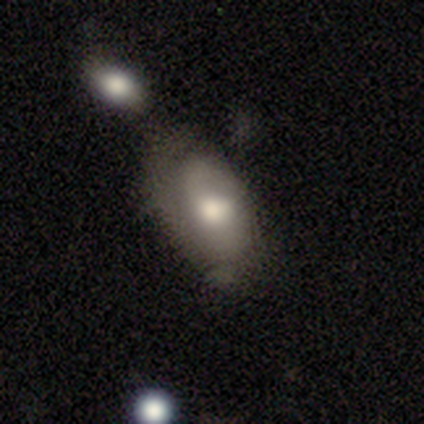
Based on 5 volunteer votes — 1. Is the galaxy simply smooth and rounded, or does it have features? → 100% smooth, 0% featured or disk, 0% star or artifact.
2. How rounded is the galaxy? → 100% in between, 0% round, 0% cigar-shaped.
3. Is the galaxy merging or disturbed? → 60% none, 20% major disturbance, 20% merger, 0% minor disturbance.